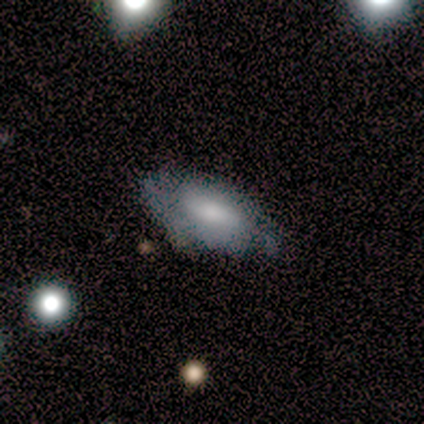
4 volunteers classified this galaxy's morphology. smooth_or_featured: smooth (p=0.50) [alt: featured or disk p=0.25]
how_rounded: in between (p=0.50) [tied with: cigar-shaped p=0.50]
merging: none (p=0.67) [alt: major disturbance p=0.33]